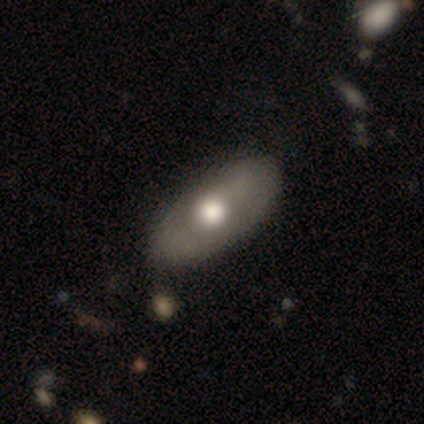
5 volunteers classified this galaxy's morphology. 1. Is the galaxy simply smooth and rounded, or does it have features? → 60% featured or disk, 20% smooth, 20% star or artifact.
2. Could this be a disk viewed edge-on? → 100% no, 0% yes.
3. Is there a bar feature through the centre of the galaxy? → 100% no, 0% strong, 0% weak.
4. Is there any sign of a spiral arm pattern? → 100% no, 0% yes.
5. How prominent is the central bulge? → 100% moderate, 0% dominant, 0% large, 0% small, 0% none.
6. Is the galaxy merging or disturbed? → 50% none (tied), 50% minor disturbance (tied), 0% major disturbance, 0% merger.